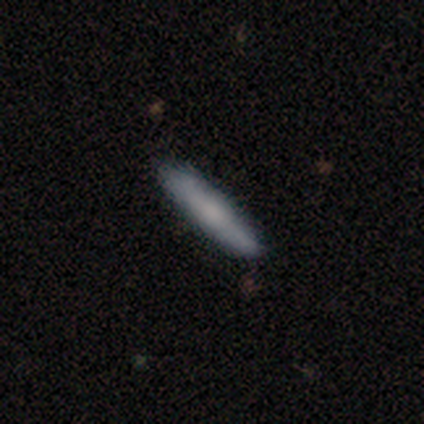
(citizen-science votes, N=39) Smooth or featured? 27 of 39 (69%) said smooth. How rounded? 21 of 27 (78%) said cigar-shaped. Merging? 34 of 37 (92%) said none.